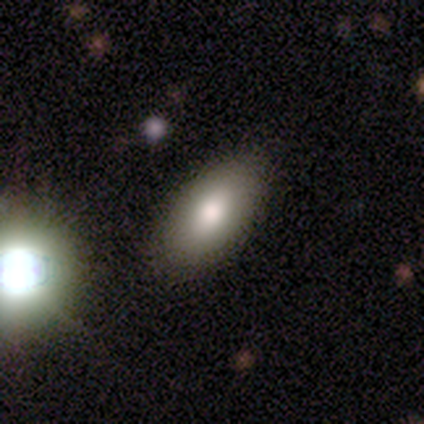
Smooth or featured? 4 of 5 (80%) said smooth. How rounded? 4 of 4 (100%) said in between. Merging? 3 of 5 (60%) said none.